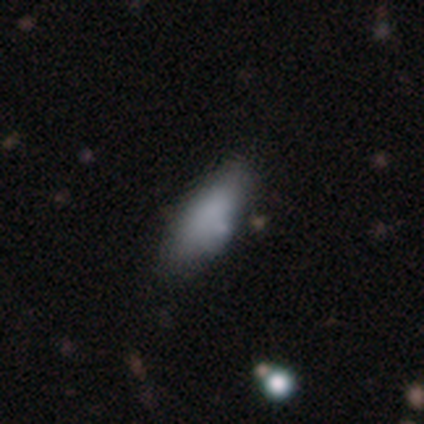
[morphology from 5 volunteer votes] Overall: smooth (80%). How rounded: in between (75%). Merging: none (50%, tied with minor disturbance).